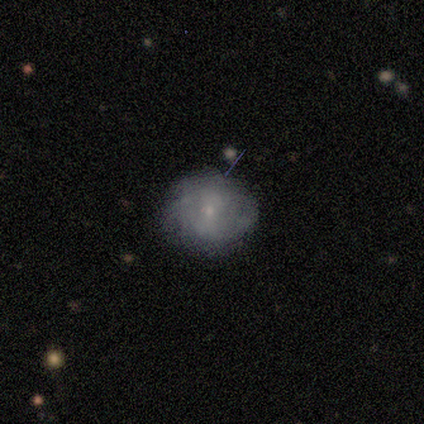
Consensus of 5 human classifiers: A featured or disk galaxy (60%) viewed edge-on (67%) with a boxy central bulge (50%, tied with rounded).

Vote fractions:
- Smooth or featured? featured or disk: 60% / smooth: 40% / star or artifact: 0%
- Edge-on disk? yes: 67% / no: 33%
- Edge-on bulge? boxy: 50% (tied) / rounded: 50% (tied) / none: 0%
- Merging? none: 60% / minor disturbance: 20% / merger: 20% / major disturbance: 0%